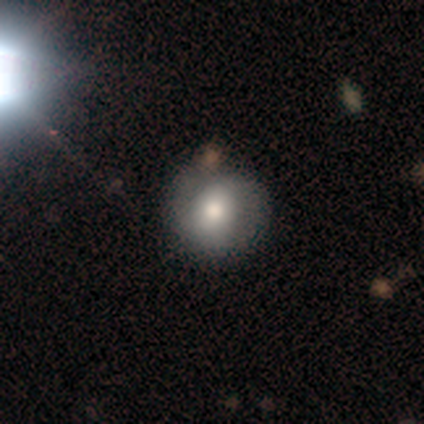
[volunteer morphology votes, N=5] smooth 80%, featured or disk 20%, star or artifact 0%. Down the decision tree: how rounded — round (75%); merging — none (60%).